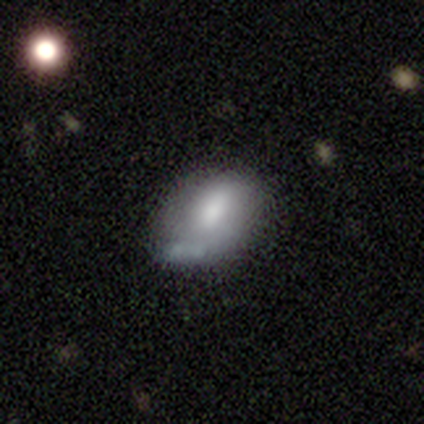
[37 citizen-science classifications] Smooth or featured? 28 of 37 (76%) said smooth. How rounded? 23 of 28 (82%) said in between. Merging? 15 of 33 (45%) said none.